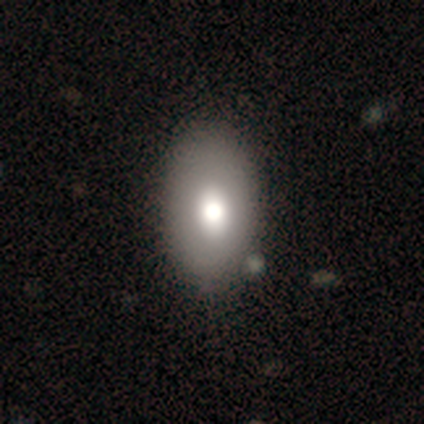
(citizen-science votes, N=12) Smooth or featured? 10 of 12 (83%) said smooth. How rounded? 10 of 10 (100%) said in between. Merging? 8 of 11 (73%) said none.